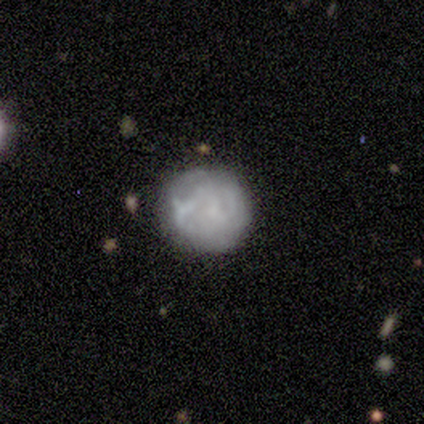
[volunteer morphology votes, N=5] Smooth or featured? featured or disk (80%)
Edge-on disk? no (100%)
Bar? no (75%)
Spiral arms? no (75%)
Bulge size? none (75%)
Merging? none (60%)